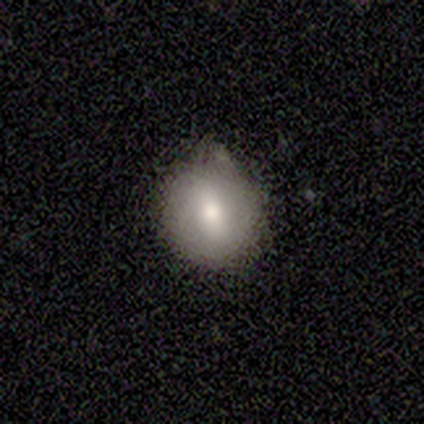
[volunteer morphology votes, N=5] A smooth galaxy with no disk features (80%) that is round (75%).

Vote fractions:
- Smooth or featured? smooth: 80% / featured or disk: 20% / star or artifact: 0%
- How rounded? round: 75% / in between: 25% / cigar-shaped: 0%
- Merging? none: 80% / minor disturbance: 20% / major disturbance: 0% / merger: 0%